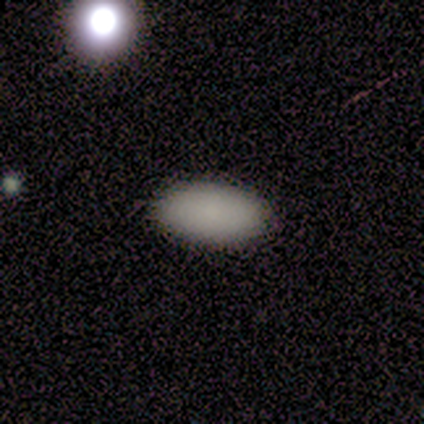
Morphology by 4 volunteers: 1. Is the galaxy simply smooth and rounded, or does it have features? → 100% smooth, 0% featured or disk, 0% star or artifact.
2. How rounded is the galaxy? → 100% in between, 0% round, 0% cigar-shaped.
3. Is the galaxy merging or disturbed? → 100% none, 0% minor disturbance, 0% major disturbance, 0% merger.